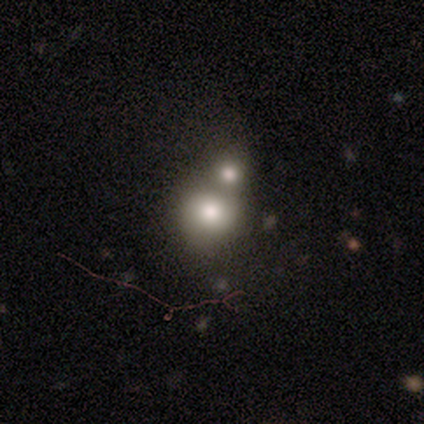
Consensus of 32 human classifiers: Q: Smooth or featured?
A: smooth (72%); runner-up: featured or disk (19%)
Q: How rounded?
A: round (83%); runner-up: in between (13%)
Q: Merging?
A: merger (55%)